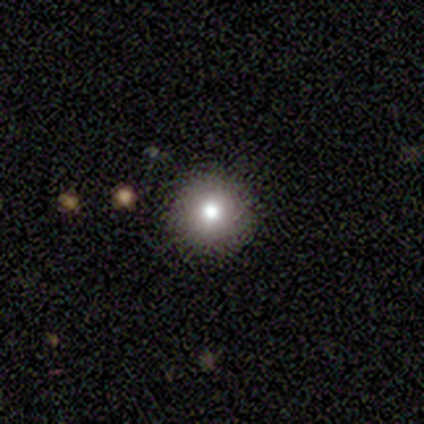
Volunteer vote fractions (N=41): This is likely a smooth galaxy (78%). How rounded: clearly round (97%). Merging: clearly none (91%).